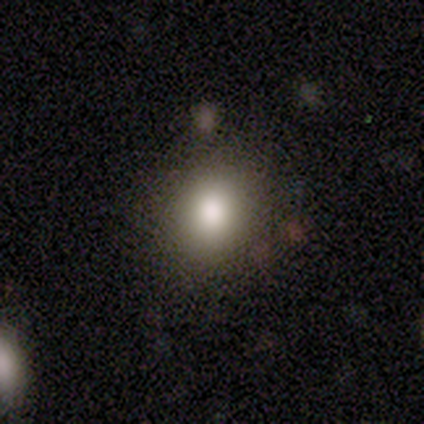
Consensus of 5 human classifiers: Volunteers were most divided on "merging": none: 60%, minor disturbance: 40%, major disturbance: 0%, merger: 0%. More confident: smooth or featured — smooth (100%); how rounded — round (100%).